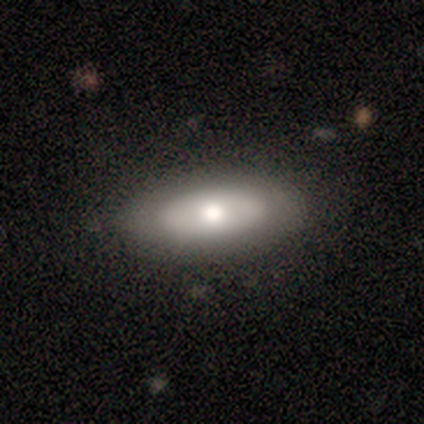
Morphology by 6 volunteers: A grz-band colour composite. It shows a smooth galaxy with no disk features (50%, tied with featured or disk) that is in between round and cigar-shaped (100%). Merging: none (100%).